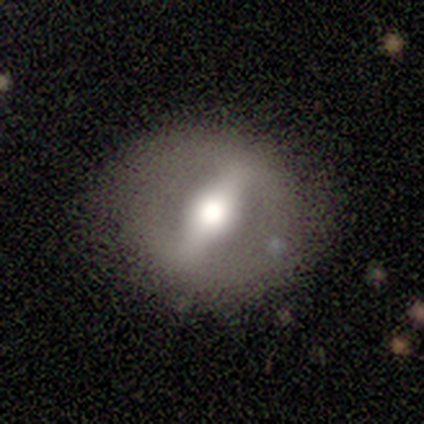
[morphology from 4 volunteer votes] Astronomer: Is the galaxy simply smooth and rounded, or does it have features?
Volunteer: featured or disk — 75%.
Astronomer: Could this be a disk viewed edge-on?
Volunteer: no — 100%.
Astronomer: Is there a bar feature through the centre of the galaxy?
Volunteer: strong — 100%.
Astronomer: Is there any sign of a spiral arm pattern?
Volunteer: no — 100%.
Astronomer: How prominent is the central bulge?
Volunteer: moderate — 67%.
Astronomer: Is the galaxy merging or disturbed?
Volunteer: none — 75%.